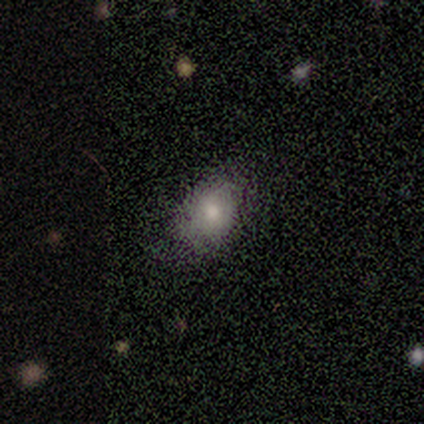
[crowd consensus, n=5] smooth 60%, featured or disk 20%, star or artifact 20%. Down the decision tree: how rounded — in between (67%); merging — none (75%).